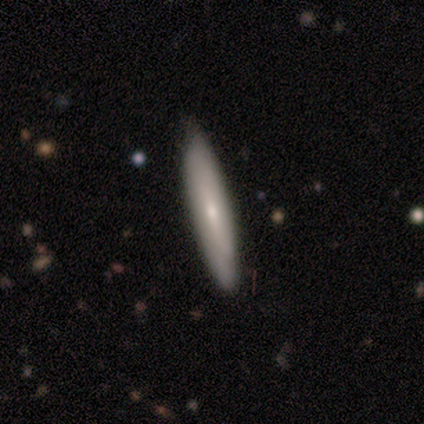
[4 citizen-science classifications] This appears to be a featured or disk galaxy (100%) viewed edge-on (75%) with a rounded central bulge (100%). Merging: none (100%).